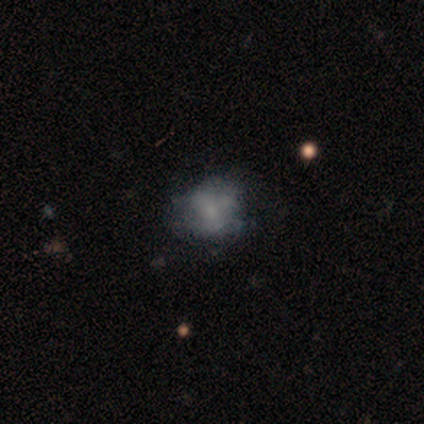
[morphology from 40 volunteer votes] This is possibly a featured or disk galaxy (50%). It is clearly not viewed edge-on (100%). Bar: clearly no (95%). Spiral arm pattern: likely no (75%). Central bulge: possibly none (55%). Merging: marginally none (44%).